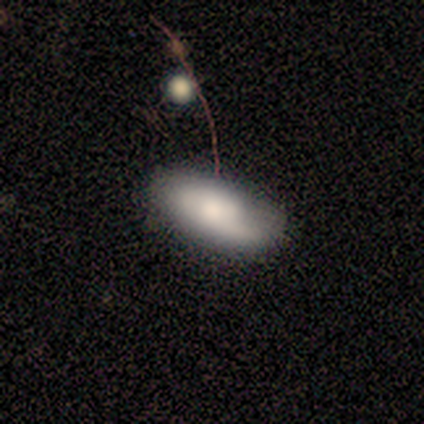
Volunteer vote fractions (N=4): Smooth or featured? 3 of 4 (75%) said smooth. How rounded? 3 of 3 (100%) said in between. Merging? 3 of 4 (75%) said none.